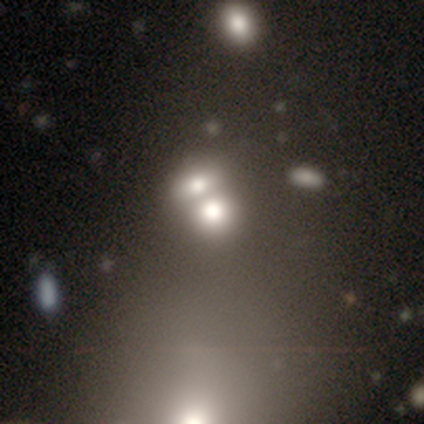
Smooth or featured? 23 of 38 (61%) said smooth. How rounded? 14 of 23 (61%) said round. Merging? 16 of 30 (53%) said merger.